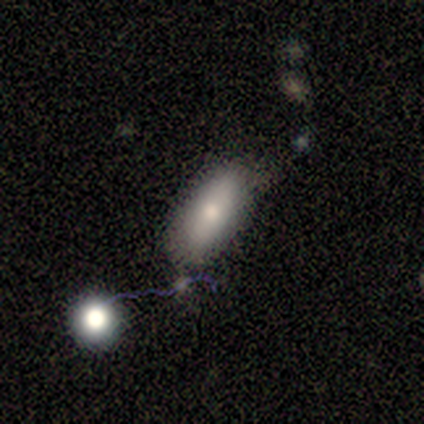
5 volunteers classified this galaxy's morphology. A smooth galaxy with no disk features (80%) that is in between round and cigar-shaped (50%). Merging: none (80%).